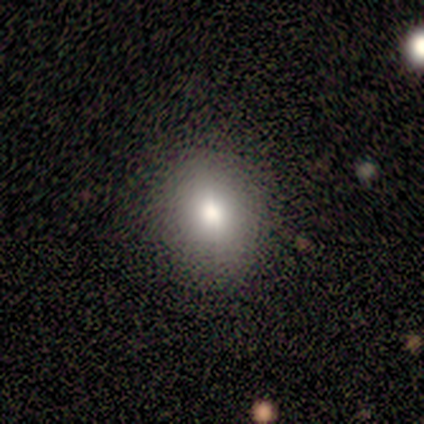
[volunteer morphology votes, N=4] Smooth or featured: smooth — 100%
How rounded: round — 50% (tied with in between — 50%)
Merging: none — 100%